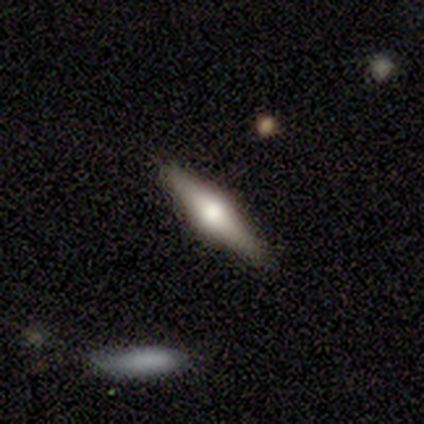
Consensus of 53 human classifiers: Morphology: type=featured or disk (70%); edge-on=yes (95%); edge-on bulge=rounded (100%); merging=none (88%).